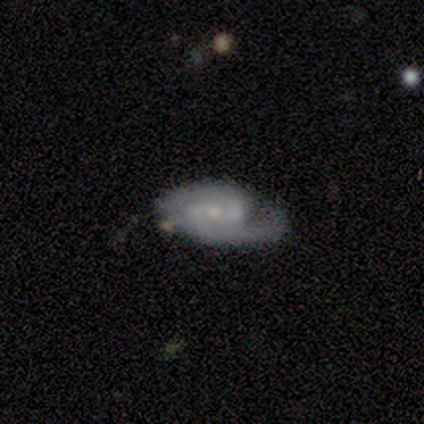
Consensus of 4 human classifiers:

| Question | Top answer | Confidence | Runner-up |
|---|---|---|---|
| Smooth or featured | featured or disk | 100% | — |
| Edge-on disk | no | 100% | — |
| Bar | no | 50% | strong (25%) |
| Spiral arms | yes | 100% | — |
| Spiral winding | tight | 50% | tied: medium (50%) |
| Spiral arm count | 2 | 75% | 1 (25%) |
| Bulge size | small | 75% | moderate (25%) |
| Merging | minor disturbance | 75% | none (25%) |